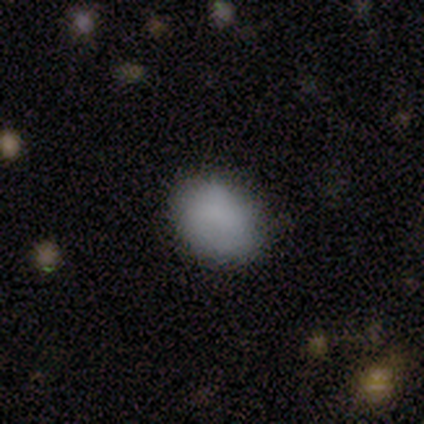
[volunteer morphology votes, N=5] Q: Smooth or featured?
A: smooth (80%); runner-up: featured or disk (20%)
Q: How rounded?
A: round (75%); runner-up: in between (25%)
Q: Merging?
A: none (80%); runner-up: minor disturbance (20%)